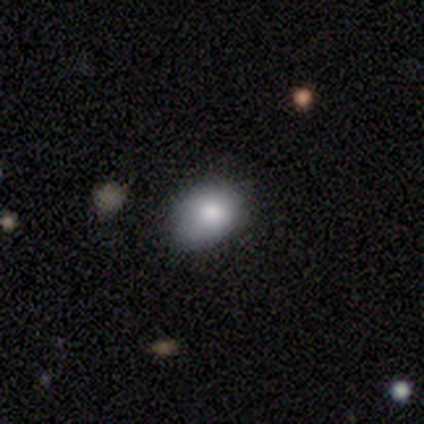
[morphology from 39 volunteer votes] A smooth galaxy with no disk features (85%) that is in between round and cigar-shaped (70%). Merging: none (59%).